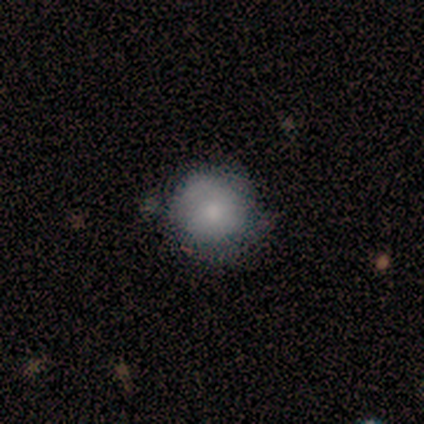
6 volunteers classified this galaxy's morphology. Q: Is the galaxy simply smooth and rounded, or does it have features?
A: smooth — 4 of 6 (67%).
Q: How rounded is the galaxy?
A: round — 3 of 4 (75%).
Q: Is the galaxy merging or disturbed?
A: none — 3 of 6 (50%, tied with minor disturbance).